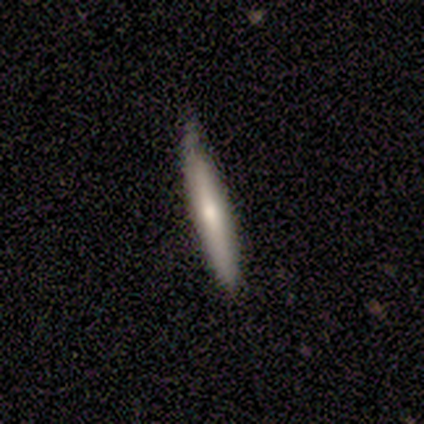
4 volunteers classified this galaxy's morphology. Smooth or featured?
  - smooth: 100% *
  - featured or disk: 0%
  - star or artifact: 0%
How rounded?
  - cigar-shaped: 100% *
  - round: 0%
  - in between: 0%
Merging?
  - none: 75% *
  - minor disturbance: 25%
  - major disturbance: 0%
  - merger: 0%